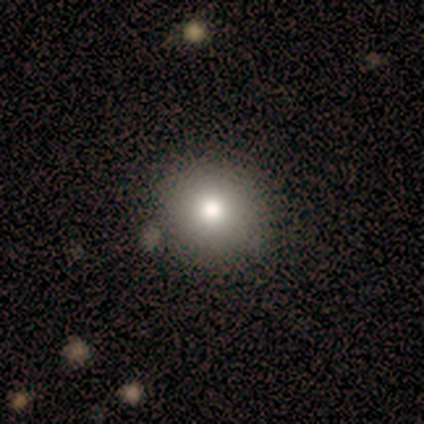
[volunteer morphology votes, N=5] A smooth galaxy with no disk features (100%) that is round (80%). Merging: none (100%).